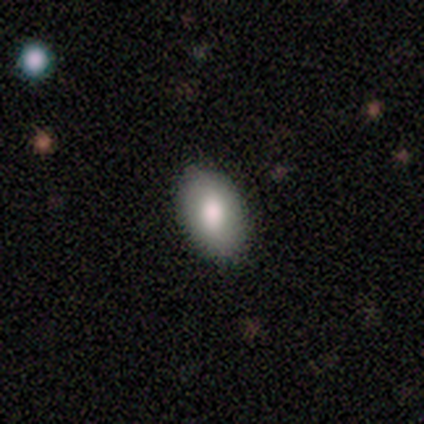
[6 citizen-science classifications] This is clearly a smooth galaxy (83%). How rounded: clearly in between (80%). Merging: clearly none (83%).